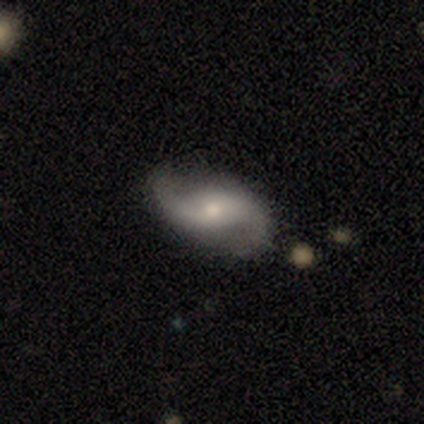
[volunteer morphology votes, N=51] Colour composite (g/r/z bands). It shows a featured or disk galaxy (86%) with no bar (57%), 2 (100%) loose (73%) spiral arms (93%) and a moderate central bulge (59%). Merging: none (80%).